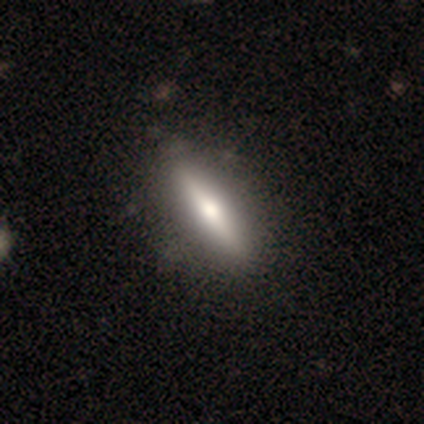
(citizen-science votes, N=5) Volunteers were most divided on "smooth or featured": smooth: 60%, featured or disk: 40%, star or artifact: 0%. More confident: merging — none (100%); how rounded — cigar-shaped (67%).